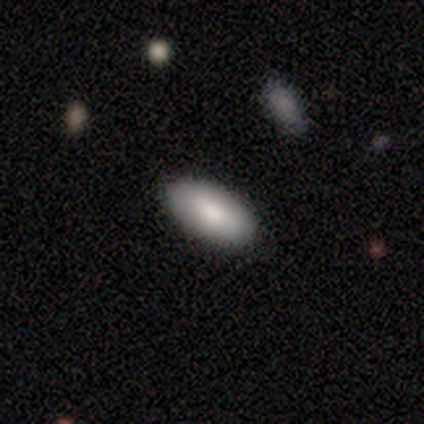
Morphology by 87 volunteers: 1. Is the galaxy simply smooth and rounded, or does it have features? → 83% smooth, 11% featured or disk, 6% star or artifact.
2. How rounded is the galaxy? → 96% in between, 3% cigar-shaped, 1% round.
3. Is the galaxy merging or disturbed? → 87% none, 10% minor disturbance, 4% major disturbance, 0% merger.